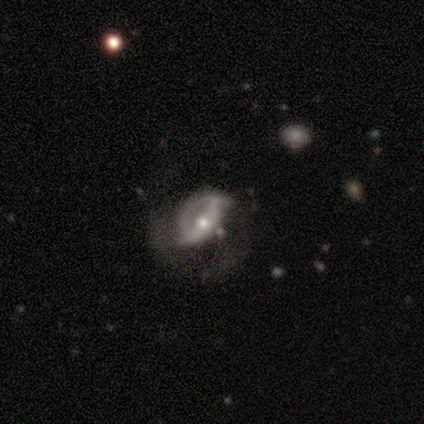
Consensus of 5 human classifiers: Morphology: type=featured or disk (100%); edge-on=no (60%); bar=no (67%); spiral arms=no (67%); bulge=moderate (67%); merging=major disturbance (60%).